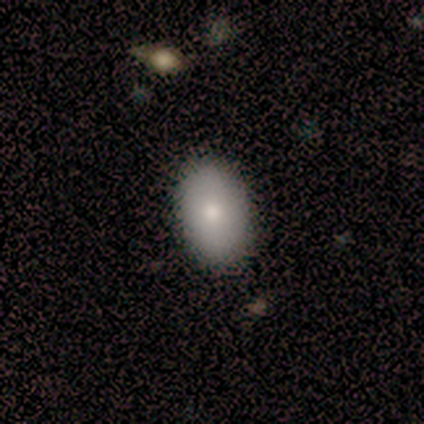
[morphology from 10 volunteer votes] smooth_or_featured: smooth (p=0.70) [alt: featured or disk p=0.30]
how_rounded: in between (p=0.86) [alt: round p=0.14]
merging: none (p=0.90) [alt: minor disturbance p=0.10]